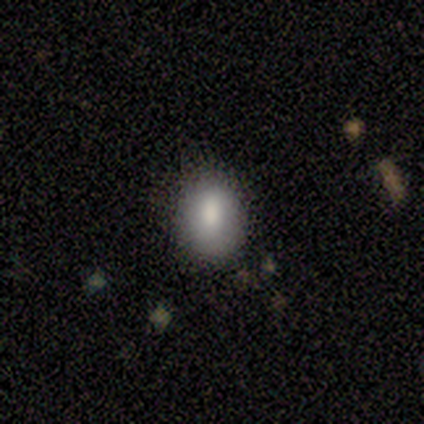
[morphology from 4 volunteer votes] Smooth or featured? 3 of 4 (75%) said smooth. How rounded? 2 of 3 (67%) said in between. Merging? 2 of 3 (67%) said minor disturbance.